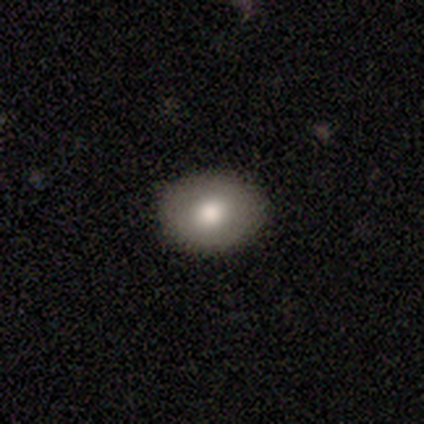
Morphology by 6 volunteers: Smooth or featured? smooth (83%)
How rounded? round (60%)
Merging? none (100%)